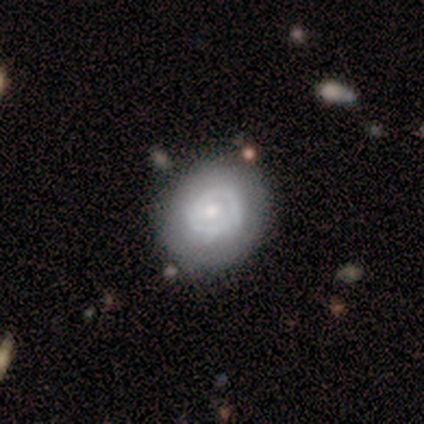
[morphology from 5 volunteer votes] A featured or disk galaxy (100%) with no bar (80%), 2 (75%) tight (75%) spiral arms (80%) and a small central bulge (60%). Merging: none (100%).